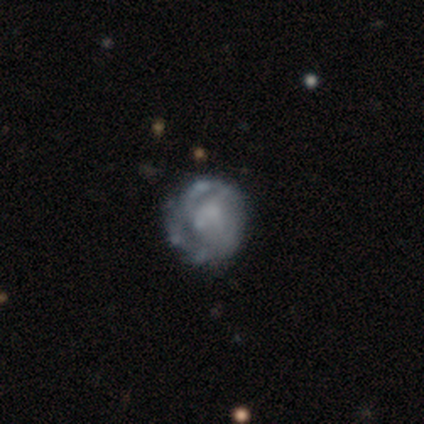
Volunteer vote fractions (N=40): Smooth or featured: featured or disk — 88% (smooth — 10%)
Edge-on disk: no — 100%
Bar: no — 86% (weak — 9%)
Spiral arms: yes — 71% (no — 29%)
Spiral winding: tight — 64% (medium — 28%)
Spiral arm count: can't tell — 60% (2 — 28%)
Bulge size: none — 60% (small — 23%)
Merging: none — 56% (major disturbance — 13%)